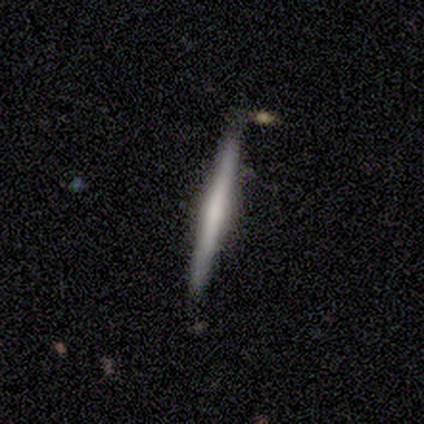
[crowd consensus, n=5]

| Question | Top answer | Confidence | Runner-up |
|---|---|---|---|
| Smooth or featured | featured or disk | 60% | smooth (20%) |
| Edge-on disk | yes | 100% | — |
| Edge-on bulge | rounded | 67% | none (33%) |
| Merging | none | 100% | — |